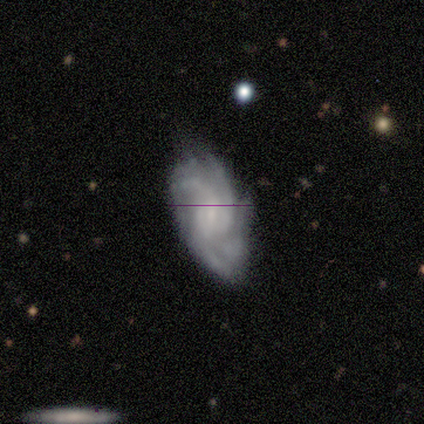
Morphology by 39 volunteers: featured or disk 67%, smooth 23%, star or artifact 10%. Down the decision tree: edge-on disk — no (100%); bar — no (65%); spiral arms — yes (96%); spiral arm count — 4 (36%); spiral winding — tight (48%); bulge size — small (54%); merging — none (60%).